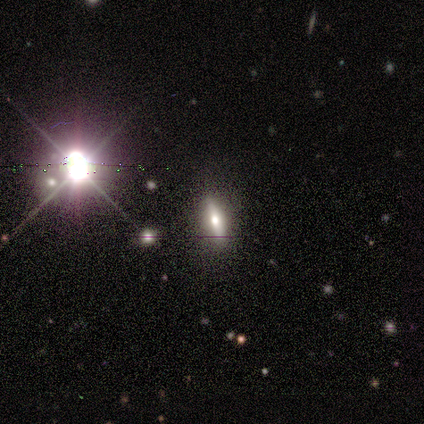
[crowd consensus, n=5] Volunteers were most divided on "smooth or featured": star or artifact: 80%, smooth: 20%, featured or disk: 0%.